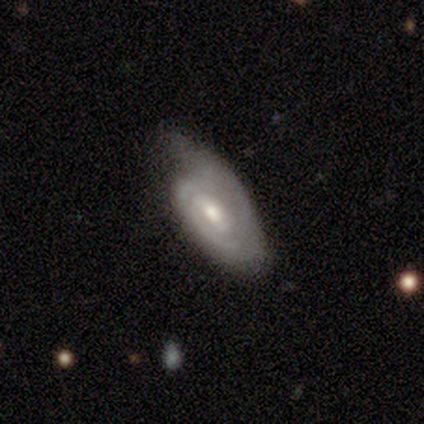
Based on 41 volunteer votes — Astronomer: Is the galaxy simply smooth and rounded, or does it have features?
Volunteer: featured or disk — 73%.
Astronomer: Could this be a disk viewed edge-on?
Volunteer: no — 97%.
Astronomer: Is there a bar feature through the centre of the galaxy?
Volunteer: weak — 52% (runner-up: no, 41%).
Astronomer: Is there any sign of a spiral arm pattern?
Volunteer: yes — 97%.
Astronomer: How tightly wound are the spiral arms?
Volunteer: tight — 75%.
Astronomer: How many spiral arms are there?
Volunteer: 2 — 29% (runner-up: 1, 25%).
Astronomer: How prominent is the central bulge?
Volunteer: moderate — 79%.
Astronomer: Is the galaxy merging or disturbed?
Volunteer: minor disturbance — 54% (runner-up: none, 33%).